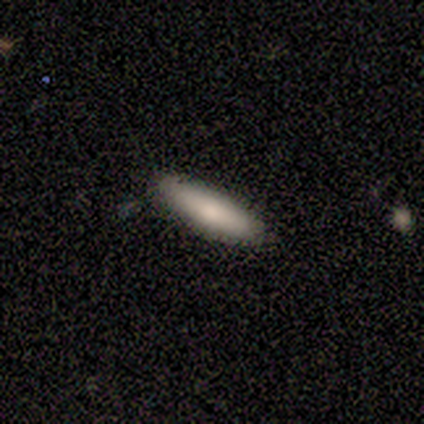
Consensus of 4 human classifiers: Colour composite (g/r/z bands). It shows a smooth galaxy with no disk features (100%) that is in between round and cigar-shaped (75%). Merging: none (50%, tied with minor disturbance).